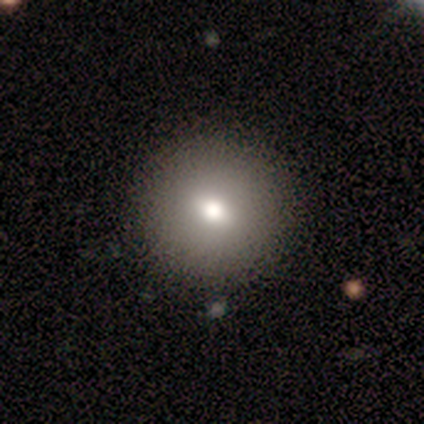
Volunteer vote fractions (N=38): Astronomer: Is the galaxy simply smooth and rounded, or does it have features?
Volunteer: smooth — 74%.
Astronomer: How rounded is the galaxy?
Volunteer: round — 89%.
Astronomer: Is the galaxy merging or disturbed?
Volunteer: none — 74%.